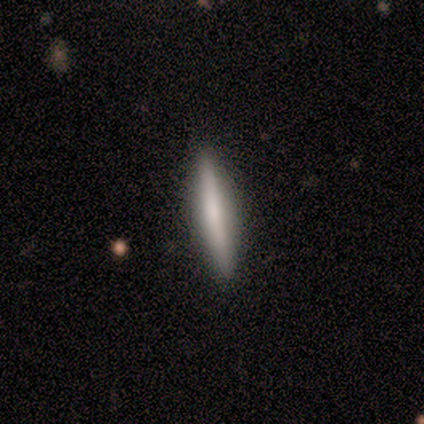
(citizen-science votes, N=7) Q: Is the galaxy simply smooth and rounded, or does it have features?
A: smooth — 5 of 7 (71%).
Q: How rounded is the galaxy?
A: cigar-shaped — 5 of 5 (100%).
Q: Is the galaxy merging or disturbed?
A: none — 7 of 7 (100%).